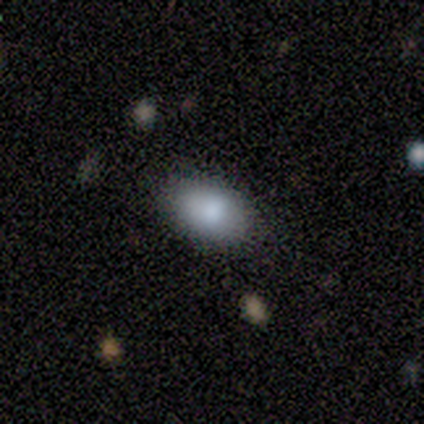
smooth_or_featured: smooth (p=1.00)
how_rounded: in between (p=1.00)
merging: none (p=1.00)